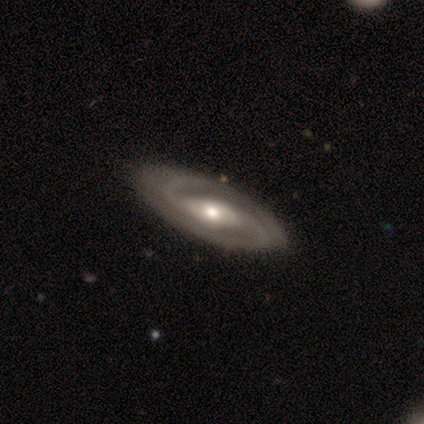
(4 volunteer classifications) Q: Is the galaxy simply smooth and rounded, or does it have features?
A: featured or disk — 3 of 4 (75%).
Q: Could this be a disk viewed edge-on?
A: no — 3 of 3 (100%).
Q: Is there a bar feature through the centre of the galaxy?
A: weak — 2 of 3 (67%).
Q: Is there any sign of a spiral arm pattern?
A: yes — 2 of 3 (67%).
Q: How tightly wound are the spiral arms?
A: tight — 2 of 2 (100%).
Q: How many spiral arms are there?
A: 2 — 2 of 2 (100%).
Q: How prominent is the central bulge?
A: large — 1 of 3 (33%, tied with moderate and small).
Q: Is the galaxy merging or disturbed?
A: none — 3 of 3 (100%).